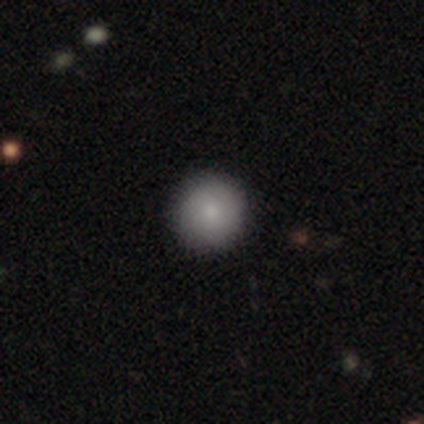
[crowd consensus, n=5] Q: Smooth or featured?
A: smooth (100%)
Q: How rounded?
A: round (80%); runner-up: in between (20%)
Q: Merging?
A: none (80%); runner-up: minor disturbance (20%)